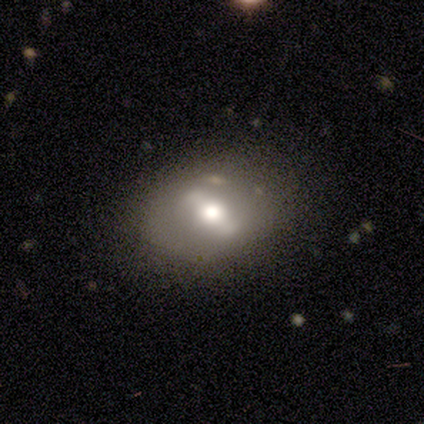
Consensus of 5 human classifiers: Smooth or featured: smooth — 40% (tied with featured or disk — 40%)
How rounded: round — 50% (tied with in between — 50%)
Merging: none — 50% (tied with minor disturbance — 50%)